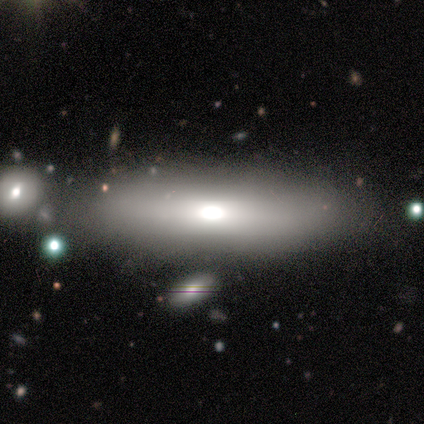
Morphology: type=smooth (75%); roundness=cigar-shaped (67%); merging=none (75%).